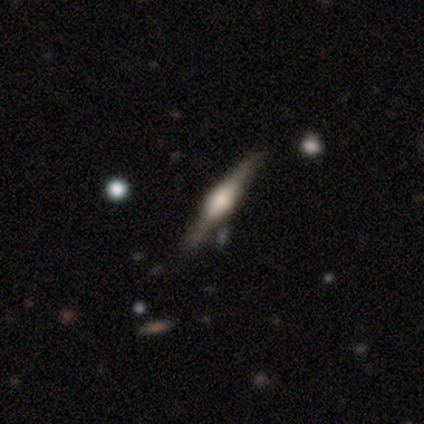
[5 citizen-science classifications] This is clearly a featured or disk galaxy (100%). It is clearly viewed edge-on (100%). Edge-on bulge: likely boxy (60%). Merging: clearly none (100%).